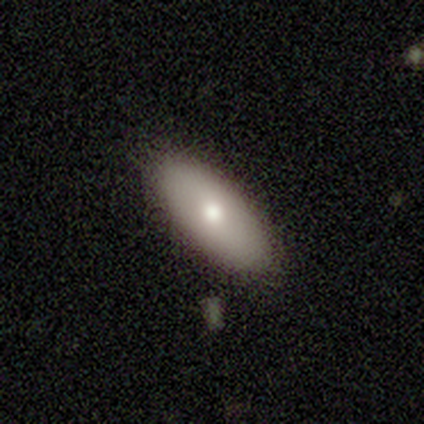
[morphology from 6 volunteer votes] smooth 83%, featured or disk 17%, star or artifact 0%. Down the decision tree: how rounded — in between (100%); merging — none (100%).